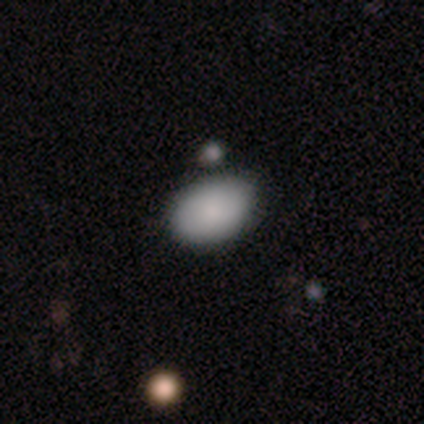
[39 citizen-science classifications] Smooth or featured? smooth (90%)
How rounded? in between (89%)
Merging? none (63%)